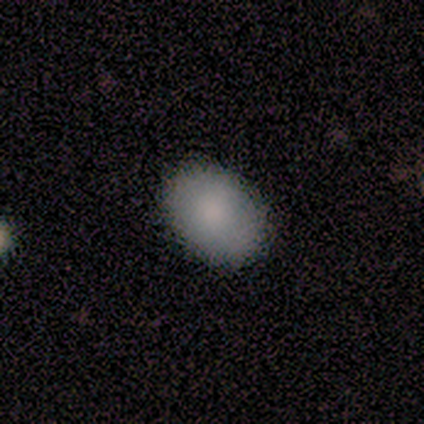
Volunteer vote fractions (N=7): Q: Smooth or featured?
A: smooth (86%); runner-up: featured or disk (14%)
Q: How rounded?
A: in between (100%)
Q: Merging?
A: none (86%); runner-up: minor disturbance (14%)